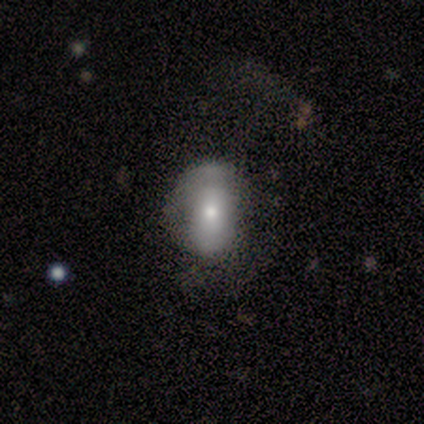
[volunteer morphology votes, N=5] This is clearly a smooth galaxy (80%). How rounded: likely in between (75%). Merging: marginally none (40%, tied with major disturbance).